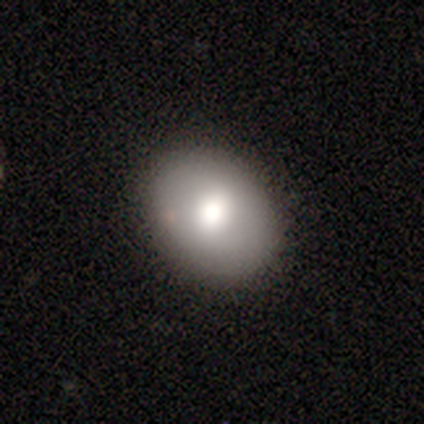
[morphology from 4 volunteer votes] A featured or disk galaxy (75%) with no bar (67%), no spiral arms (100%) and a moderate central bulge (67%). Merging: none (75%).